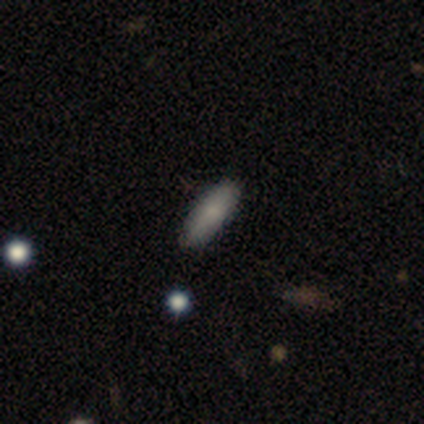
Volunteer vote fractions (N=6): This is clearly a smooth galaxy (100%). How rounded: likely cigar-shaped (67%). Merging: clearly none (100%).